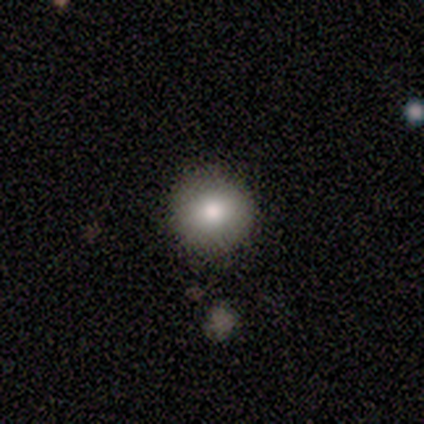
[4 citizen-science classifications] Smooth or featured? smooth (100%)
How rounded? round (100%)
Merging? none (100%)